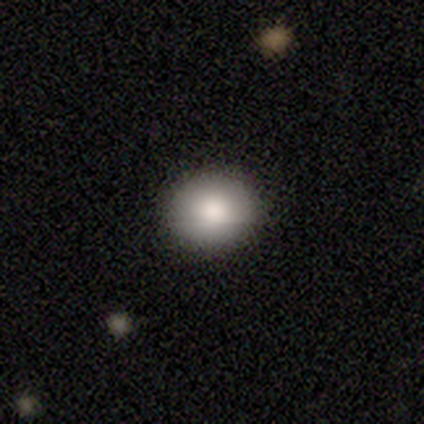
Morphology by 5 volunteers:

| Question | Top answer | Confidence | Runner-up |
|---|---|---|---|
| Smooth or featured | smooth | 100% | — |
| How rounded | in between | 60% | round (40%) |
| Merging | none | 100% | — |